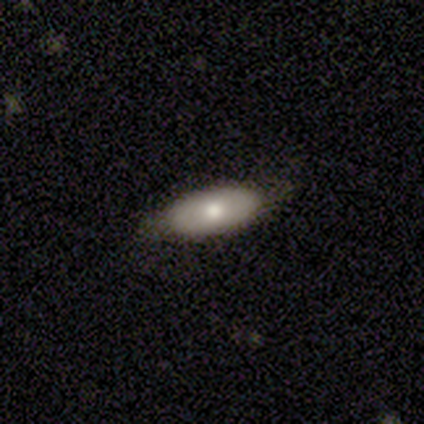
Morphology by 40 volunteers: This appears to be a smooth galaxy with no disk features (57%) that is in between round and cigar-shaped (91%). Merging: none (77%).